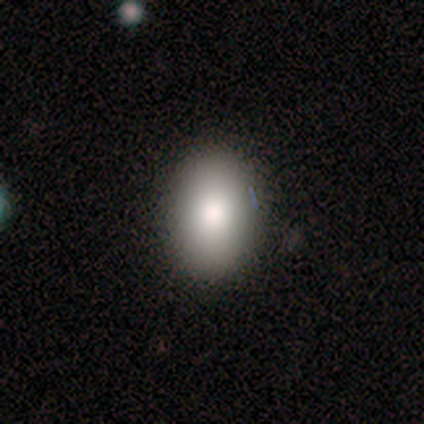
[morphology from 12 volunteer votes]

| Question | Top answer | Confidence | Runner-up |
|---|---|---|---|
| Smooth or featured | smooth | 83% | featured or disk (8%) |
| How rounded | in between | 70% | round (30%) |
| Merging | none | 100% | — |